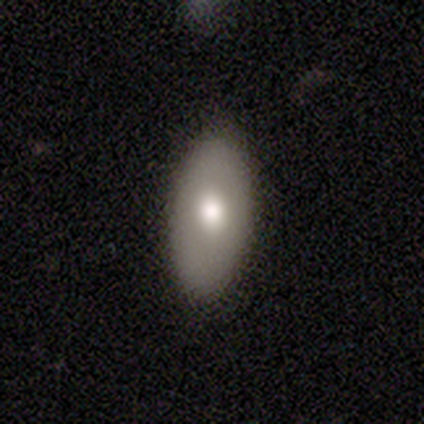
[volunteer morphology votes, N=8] A smooth galaxy with no disk features (75%) that is in between round and cigar-shaped (83%). Merging: none (88%).